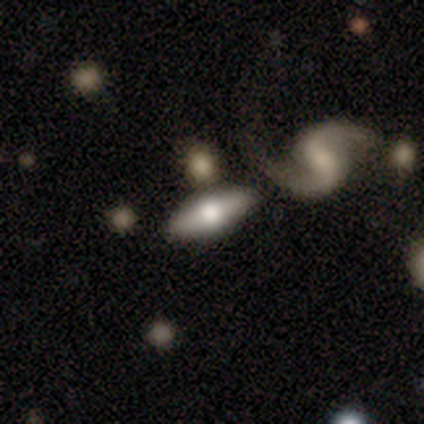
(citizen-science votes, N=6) Morphology: type=featured or disk (67%); edge-on=yes (50%, tied with no); edge-on bulge=rounded (100%); merging=none (50%).